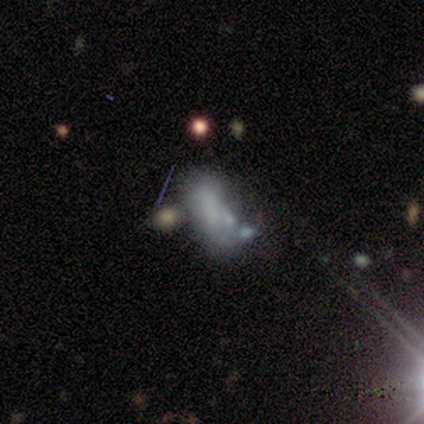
This appears to be a smooth galaxy with no disk features (40%, tied with featured or disk) that is in between round and cigar-shaped (100%). Merging: major disturbance (50%, tied with merger).